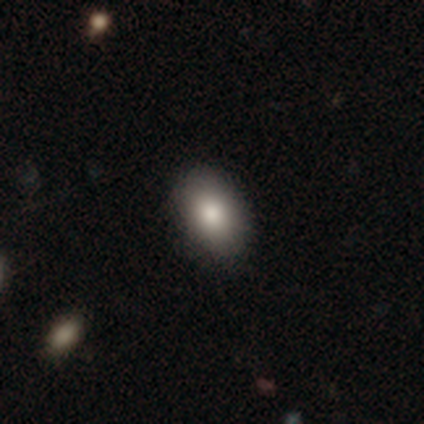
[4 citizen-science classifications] This is possibly a star or artifact rather than a galaxy (50%).